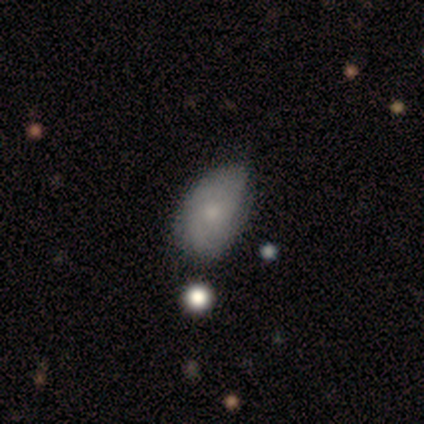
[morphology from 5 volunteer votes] Smooth or featured? 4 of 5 (80%) said smooth. How rounded? 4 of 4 (100%) said in between. Merging? 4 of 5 (80%) said none.